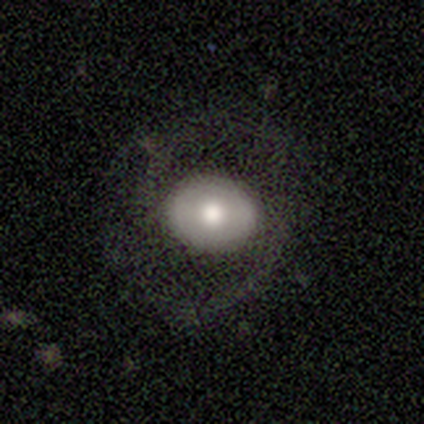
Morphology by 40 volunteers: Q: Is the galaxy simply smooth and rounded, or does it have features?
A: smooth — 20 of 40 (50%).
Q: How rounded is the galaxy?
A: in between — 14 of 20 (70%).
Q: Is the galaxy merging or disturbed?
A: none — 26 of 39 (67%).